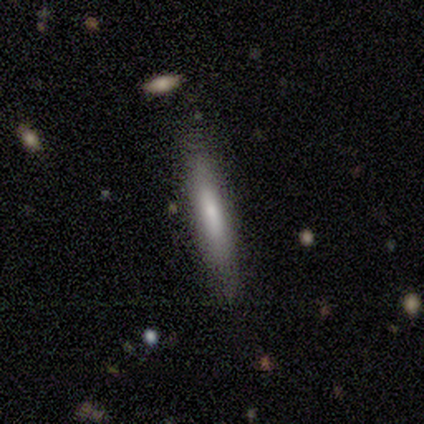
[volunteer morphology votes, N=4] Smooth or featured: smooth — 100%
How rounded: cigar-shaped — 100%
Merging: none — 100%